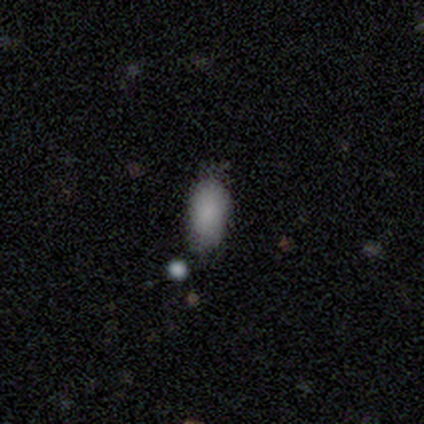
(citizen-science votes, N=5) Q: Smooth or featured?
A: smooth (100%)
Q: How rounded?
A: in between (100%)
Q: Merging?
A: none (100%)